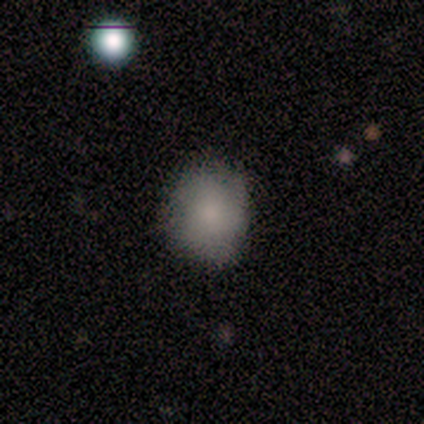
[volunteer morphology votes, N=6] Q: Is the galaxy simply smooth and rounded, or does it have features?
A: smooth — 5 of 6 (83%).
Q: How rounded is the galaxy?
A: round — 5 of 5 (100%).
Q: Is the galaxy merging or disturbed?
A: none — 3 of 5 (60%).